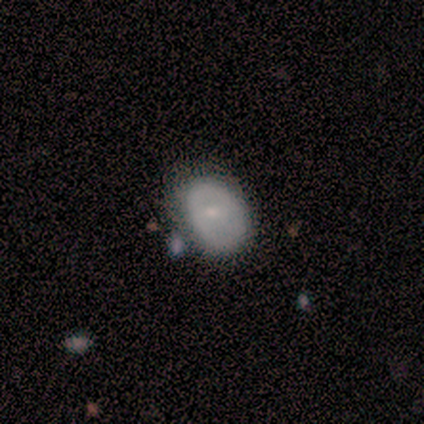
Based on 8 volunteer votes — A featured or disk galaxy (50%) with no bar (75%), no spiral arms (75%) and a small central bulge (75%).

Vote fractions:
- Smooth or featured? featured or disk: 50% / smooth: 38% / star or artifact: 12%
- Edge-on disk? no: 100% / yes: 0%
- Bar? no: 75% / weak: 25% / strong: 0%
- Spiral arms? no: 75% / yes: 25%
- Bulge size? small: 75% / moderate: 25% / dominant: 0% / large: 0% / none: 0%
- Merging? none: 57% / major disturbance: 29% / minor disturbance: 14% / merger: 0%